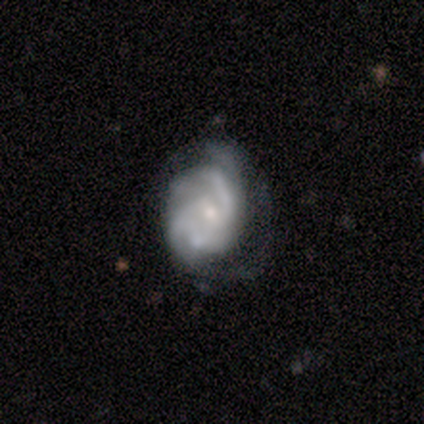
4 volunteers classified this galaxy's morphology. Q: Smooth or featured?
A: featured or disk (100%)
Q: Edge-on disk?
A: no (100%)
Q: Bar?
A: strong (50%); runner-up: weak (25%)
Q: Spiral arms?
A: yes (100%)
Q: Spiral winding?
A: tight (50%); tied with: loose (50%)
Q: Spiral arm count?
A: 2 (50%); runner-up: 3 (25%)
Q: Bulge size?
A: small (100%)
Q: Merging?
A: major disturbance (50%); runner-up: minor disturbance (25%)